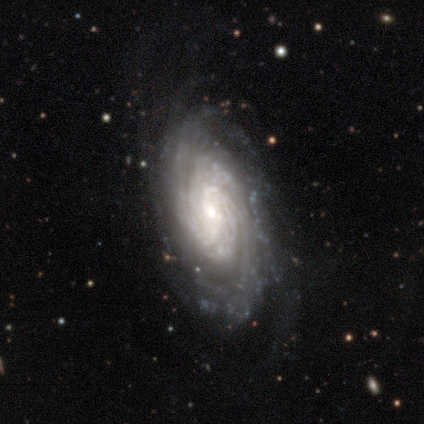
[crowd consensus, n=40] Q: Smooth or featured?
A: featured or disk (95%); runner-up: smooth (2%)
Q: Edge-on disk?
A: no (95%); runner-up: yes (5%)
Q: Bar?
A: no (47%); runner-up: weak (44%)
Q: Spiral arms?
A: yes (100%)
Q: Spiral winding?
A: tight (81%); runner-up: medium (19%)
Q: Spiral arm count?
A: can't tell (39%); runner-up: more than 4 (22%)
Q: Bulge size?
A: small (61%); runner-up: moderate (28%)
Q: Merging?
A: none (74%); runner-up: major disturbance (15%)